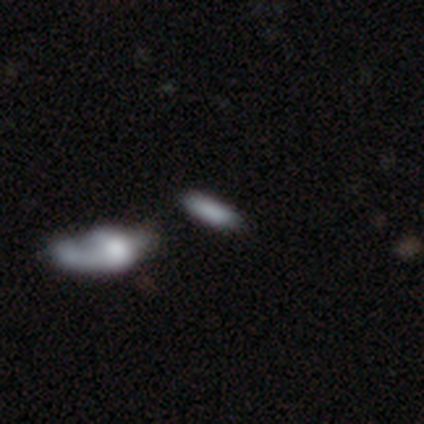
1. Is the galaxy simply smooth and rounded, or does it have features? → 79% smooth, 18% featured or disk, 3% star or artifact.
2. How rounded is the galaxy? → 57% in between, 43% cigar-shaped, 0% round.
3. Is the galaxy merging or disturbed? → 62% none, 16% merger, 11% minor disturbance, 11% major disturbance.